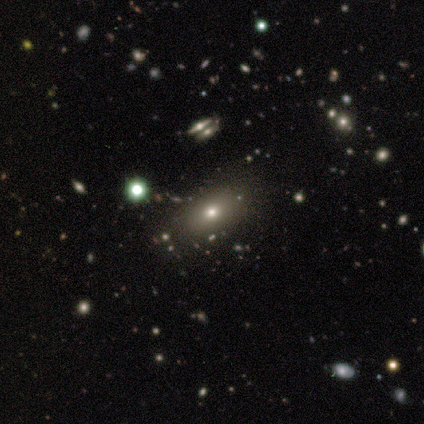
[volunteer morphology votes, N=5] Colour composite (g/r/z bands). It shows a smooth galaxy with no disk features (60%) that is in between round and cigar-shaped (100%). Merging: none (100%).